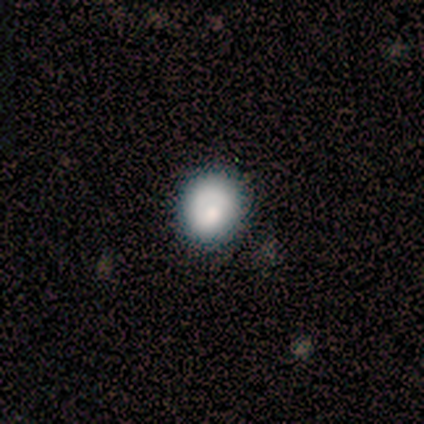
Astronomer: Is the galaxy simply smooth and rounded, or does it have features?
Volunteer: featured or disk — 100%.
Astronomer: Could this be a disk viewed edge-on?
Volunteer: no — 100%.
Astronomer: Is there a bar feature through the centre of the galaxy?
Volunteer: no — 100%.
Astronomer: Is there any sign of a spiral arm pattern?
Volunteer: yes — 100%.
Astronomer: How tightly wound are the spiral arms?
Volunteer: tight — 100%.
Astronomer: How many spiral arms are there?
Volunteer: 1 — 100%.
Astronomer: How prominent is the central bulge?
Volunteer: moderate — 100%.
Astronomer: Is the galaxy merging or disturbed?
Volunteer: none — 100%.